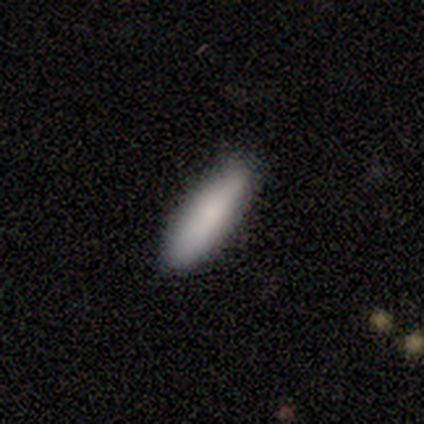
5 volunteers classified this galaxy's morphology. Q: Smooth or featured?
A: smooth (60%); runner-up: star or artifact (40%)
Q: How rounded?
A: cigar-shaped (67%); runner-up: in between (33%)
Q: Merging?
A: none (67%); runner-up: major disturbance (33%)